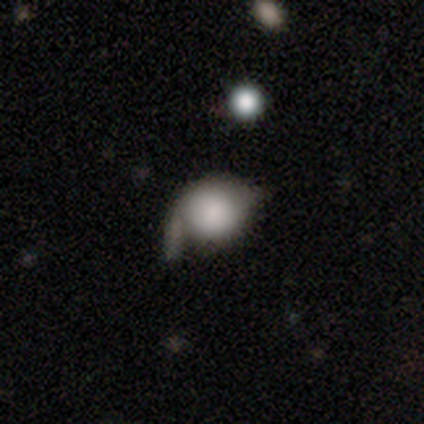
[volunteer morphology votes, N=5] Volunteers were most divided on "spiral winding" (2-way tie): tight: 50%, medium: 50%, loose: 0%; "bulge size" (3-way tie): dominant: 33%, moderate: 33%, none: 33%, large: 0%, small: 0%; "merging" (2-way tie): none: 40%, major disturbance: 40%, minor disturbance: 20%, merger: 0%. More confident: edge-on disk — no (100%); bar — no (100%); spiral arm count — 1 (100%); spiral arms — yes (67%); smooth or featured — featured or disk (60%).